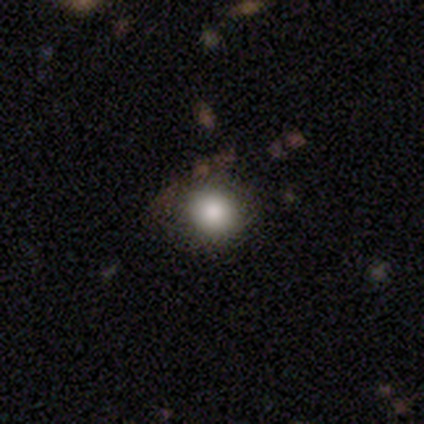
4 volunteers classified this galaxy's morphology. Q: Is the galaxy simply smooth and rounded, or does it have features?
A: smooth — 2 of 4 (50%, tied with star or artifact).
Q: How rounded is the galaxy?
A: round — 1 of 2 (50%, tied with in between).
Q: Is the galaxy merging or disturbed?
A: none — 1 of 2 (50%, tied with minor disturbance).